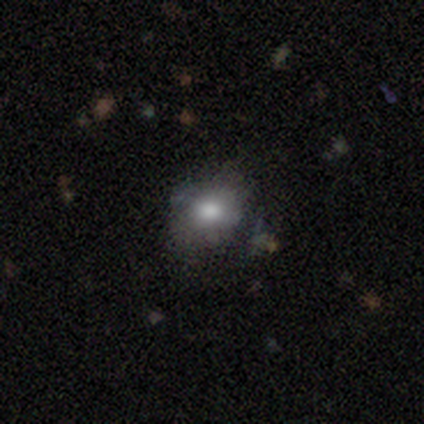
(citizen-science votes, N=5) Overall: smooth (60%; featured or disk 40%). How rounded: round (67%; in between 33%). Merging: none (80%).